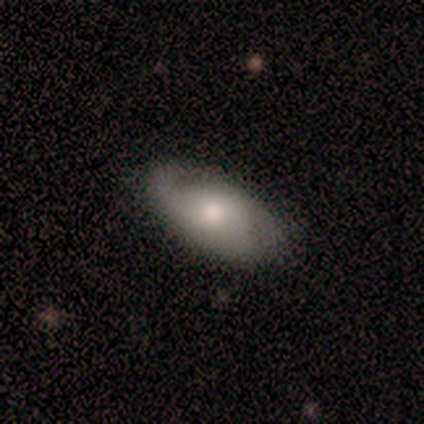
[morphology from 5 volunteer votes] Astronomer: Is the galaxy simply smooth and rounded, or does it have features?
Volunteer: featured or disk — 100%.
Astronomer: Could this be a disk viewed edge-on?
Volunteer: no — 100%.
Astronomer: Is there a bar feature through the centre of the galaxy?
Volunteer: no — 60% (runner-up: weak, 40%).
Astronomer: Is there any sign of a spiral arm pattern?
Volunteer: no — 60% (runner-up: yes, 40%).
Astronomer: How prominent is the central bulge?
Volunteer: moderate — 40%, tied with small at 40%.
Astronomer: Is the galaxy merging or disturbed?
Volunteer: none — 100%.